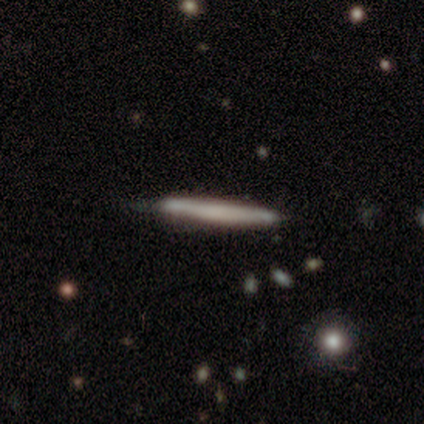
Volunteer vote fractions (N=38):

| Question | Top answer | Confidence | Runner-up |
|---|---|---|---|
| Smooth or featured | smooth | 53% | featured or disk (37%) |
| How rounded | cigar-shaped | 100% | — |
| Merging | none | 65% | minor disturbance (35%) |